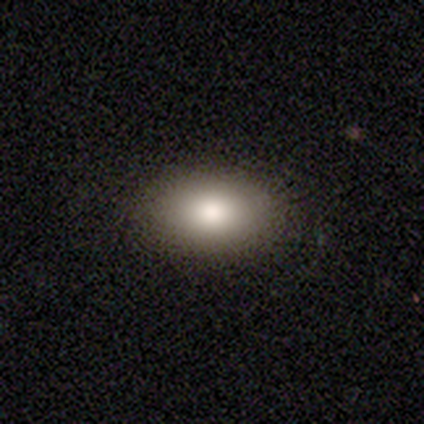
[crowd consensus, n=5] Overall: smooth (100%). How rounded: in between (80%). Merging: none (100%).